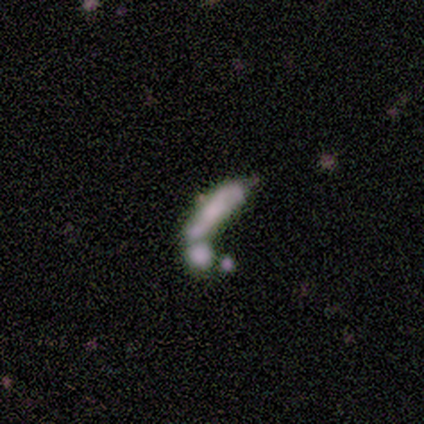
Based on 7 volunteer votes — Smooth or featured?
  - smooth: 57% *
  - star or artifact: 29%
  - featured or disk: 14%
How rounded?
  - cigar-shaped: 100% *
  - round: 0%
  - in between: 0%
Merging?
  - merger: 80% *
  - major disturbance: 20%
  - none: 0%
  - minor disturbance: 0%